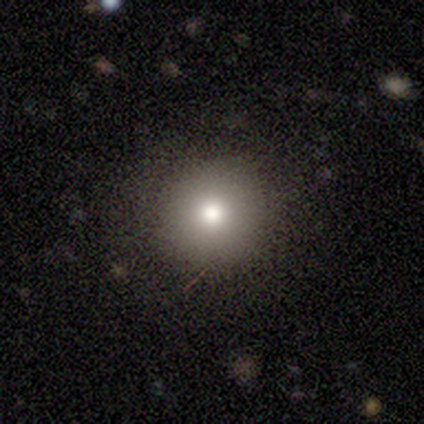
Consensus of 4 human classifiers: Q: Smooth or featured?
A: smooth (75%); runner-up: featured or disk (25%)
Q: How rounded?
A: round (100%)
Q: Merging?
A: none (100%)